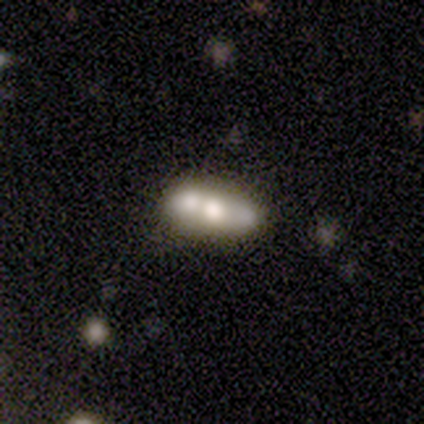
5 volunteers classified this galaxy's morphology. This appears to be a smooth galaxy with no disk features (60%) that is in between round and cigar-shaped (67%). Merging: none (100%).